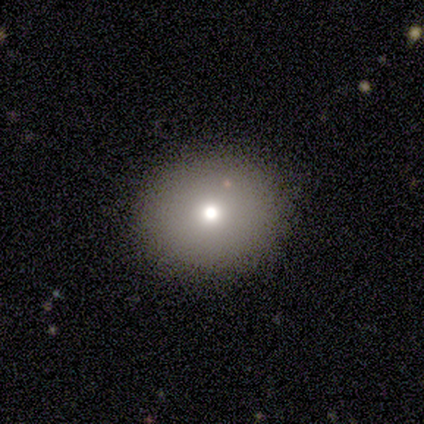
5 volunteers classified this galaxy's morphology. Overall: smooth (60%; featured or disk 40%). How rounded: round (100%). Merging: none (80%).